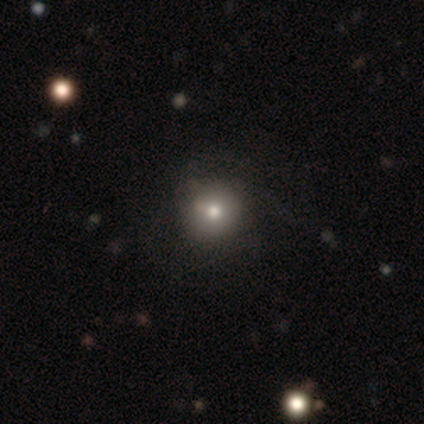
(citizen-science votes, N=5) Overall: smooth (80%). How rounded: round (100%). Merging: none (80%).